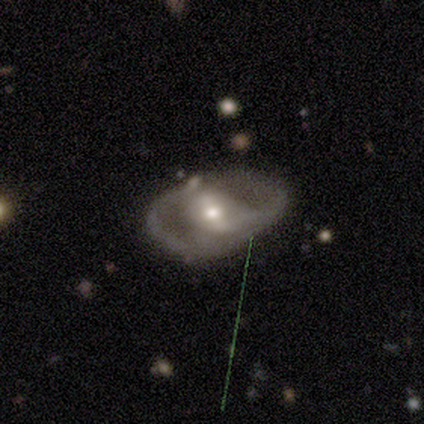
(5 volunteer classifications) Overall: featured or disk (60%; smooth 20%). Edge-on disk: no (100%). Bar: strong (67%; weak 33%). Spiral arms: yes (100%). Spiral arm count: 2 (67%; 1 33%). Spiral winding: medium (67%; loose 33%). Bulge size: moderate (100%). Merging: none (75%).